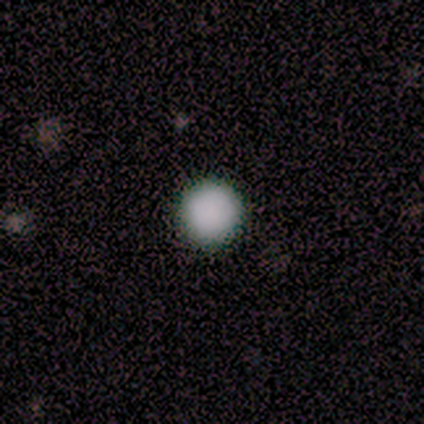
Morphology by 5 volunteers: smooth_or_featured: smooth (p=0.80) [alt: star or artifact p=0.20]
how_rounded: round (p=1.00)
merging: none (p=1.00)